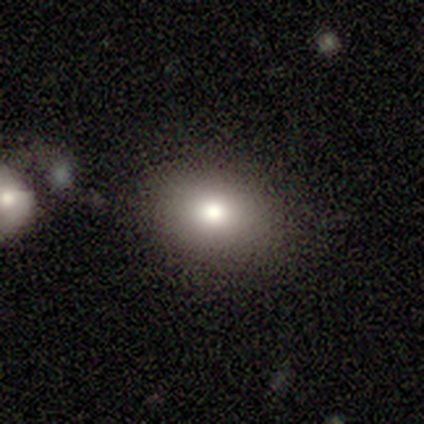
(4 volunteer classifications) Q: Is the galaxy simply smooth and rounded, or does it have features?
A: smooth — 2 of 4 (50%, tied with featured or disk).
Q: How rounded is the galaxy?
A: round — 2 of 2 (100%).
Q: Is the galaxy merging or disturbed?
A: none — 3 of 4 (75%).